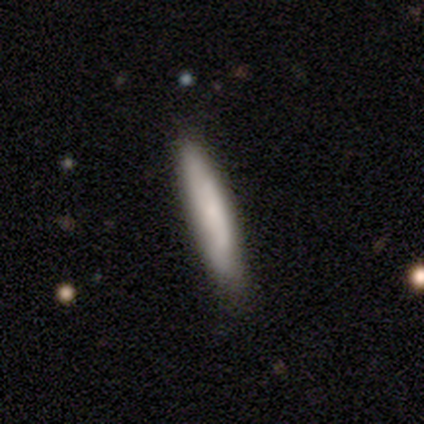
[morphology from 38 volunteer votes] This appears to be a smooth galaxy with no disk features (74%) that is cigar-shaped (93%). Merging: none (76%).